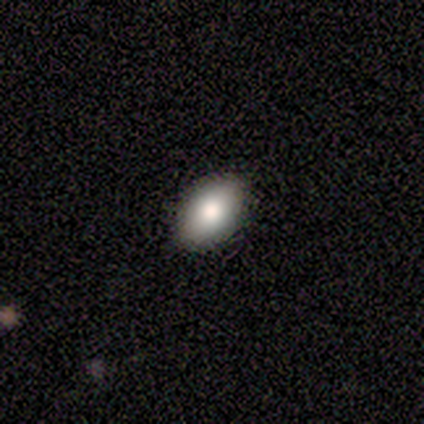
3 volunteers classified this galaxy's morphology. smooth 67%, featured or disk 33%, star or artifact 0%. Down the decision tree: how rounded — in between (100%); merging — none (67%).